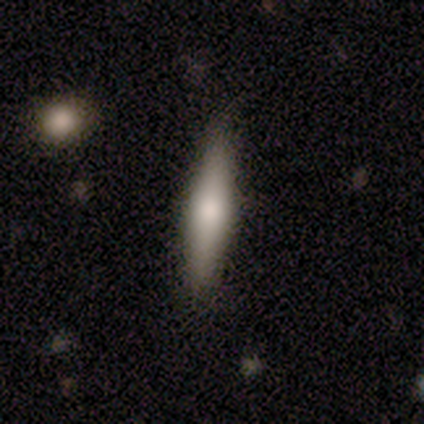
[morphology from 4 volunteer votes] A smooth galaxy with no disk features (75%) that is cigar-shaped (67%). Merging: none (100%).